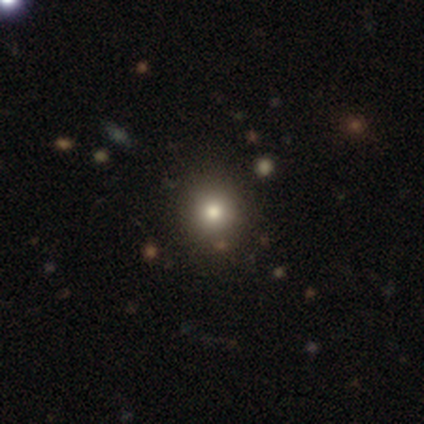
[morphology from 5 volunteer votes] A smooth galaxy with no disk features (40%, tied with featured or disk) that is round (50%, tied with in between).

Vote fractions:
- Smooth or featured? smooth: 40% (tied) / featured or disk: 40% (tied) / star or artifact: 20%
- How rounded? round: 50% (tied) / in between: 50% (tied) / cigar-shaped: 0%
- Merging? none: 75% / minor disturbance: 25% / major disturbance: 0% / merger: 0%